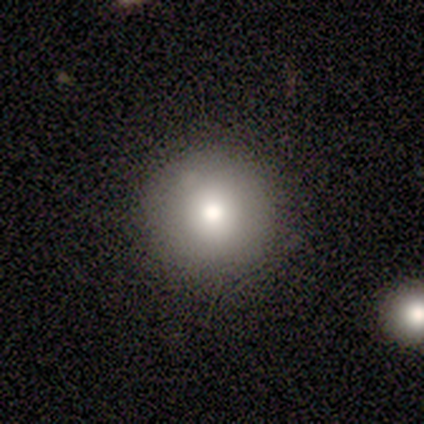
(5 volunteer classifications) Smooth or featured? smooth (60%)
How rounded? round (100%)
Merging? none (100%)